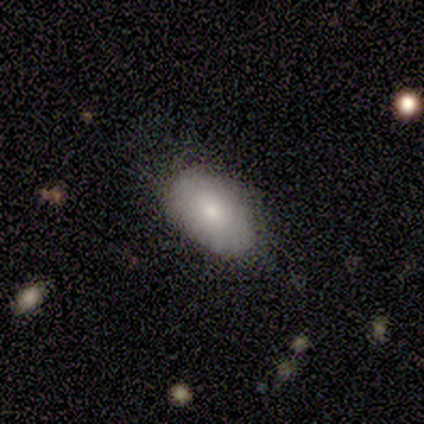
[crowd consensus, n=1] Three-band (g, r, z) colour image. It shows a smooth galaxy with no disk features (100%) that is in between round and cigar-shaped (100%). Merging: none (100%).